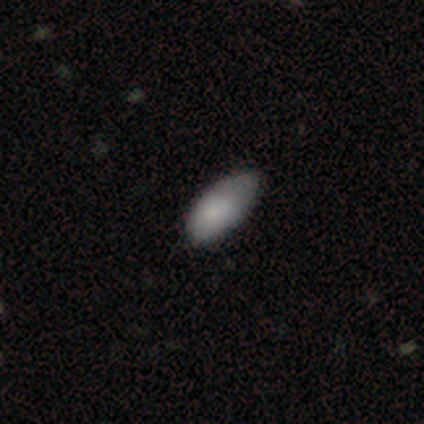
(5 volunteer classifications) smooth_or_featured: smooth (p=1.00)
how_rounded: in between (p=1.00)
merging: minor disturbance (p=0.80) [alt: none p=0.20]